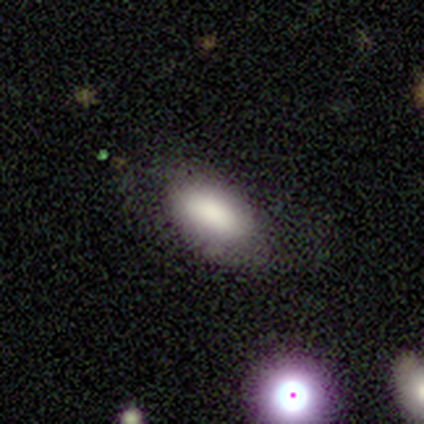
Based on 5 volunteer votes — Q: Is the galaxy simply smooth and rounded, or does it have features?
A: smooth — 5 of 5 (100%).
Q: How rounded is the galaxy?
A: in between — 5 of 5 (100%).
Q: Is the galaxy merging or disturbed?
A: none — 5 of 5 (100%).